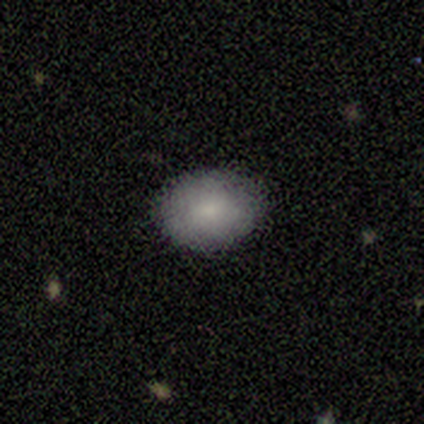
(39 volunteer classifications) Smooth or featured: smooth — 87% (star or artifact — 8%)
How rounded: in between — 62% (round — 38%)
Merging: none — 92% (minor disturbance — 8%)